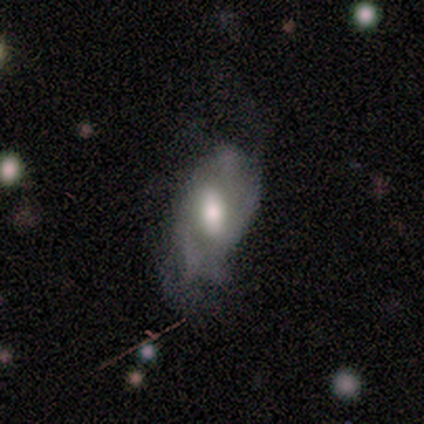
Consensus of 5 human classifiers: smooth_or_featured: smooth (p=0.60) [alt: featured or disk p=0.40]
how_rounded: round (p=0.67) [alt: in between p=0.33]
merging: none (p=0.40) [tied with: major disturbance p=0.40]